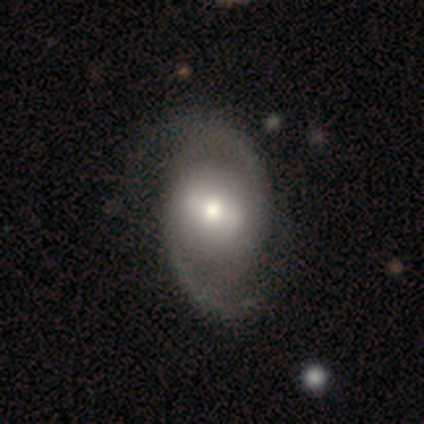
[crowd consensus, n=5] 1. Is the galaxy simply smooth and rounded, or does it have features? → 100% featured or disk, 0% smooth, 0% star or artifact.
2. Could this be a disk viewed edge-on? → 100% no, 0% yes.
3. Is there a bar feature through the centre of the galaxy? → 60% strong, 40% no, 0% weak.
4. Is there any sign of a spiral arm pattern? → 100% yes, 0% no.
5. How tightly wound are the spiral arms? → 60% loose, 40% medium, 0% tight.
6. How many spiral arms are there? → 100% 2, 0% 1, 0% 3, 0% 4, 0% more than 4, 0% can't tell.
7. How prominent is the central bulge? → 80% moderate, 20% small, 0% dominant, 0% large, 0% none.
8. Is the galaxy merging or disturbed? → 100% none, 0% minor disturbance, 0% major disturbance, 0% merger.